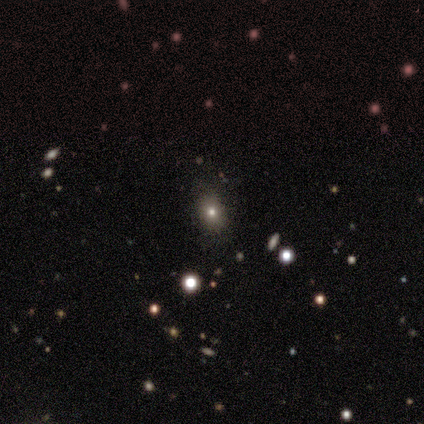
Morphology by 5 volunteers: Smooth or featured? 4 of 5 (80%) said smooth. How rounded? 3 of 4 (75%) said round. Merging? 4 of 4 (100%) said none.